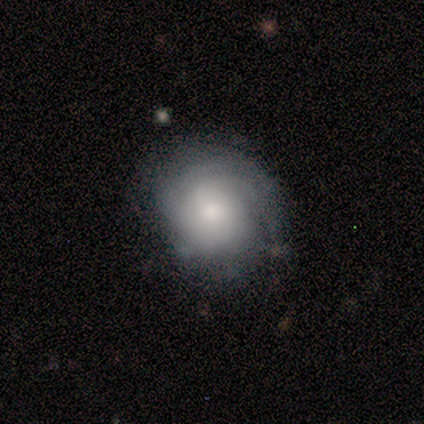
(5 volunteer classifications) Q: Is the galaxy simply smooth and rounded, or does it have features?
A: featured or disk — 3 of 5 (60%).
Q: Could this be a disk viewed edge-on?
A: no — 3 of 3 (100%).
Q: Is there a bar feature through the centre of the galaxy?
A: no — 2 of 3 (67%).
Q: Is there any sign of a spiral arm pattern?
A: yes — 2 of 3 (67%).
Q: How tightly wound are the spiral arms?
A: tight — 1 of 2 (50%, tied with medium).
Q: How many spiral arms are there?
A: more than 4 — 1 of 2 (50%, tied with can't tell).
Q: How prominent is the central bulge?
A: small — 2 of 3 (67%).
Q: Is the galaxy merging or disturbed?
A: none — 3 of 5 (60%).